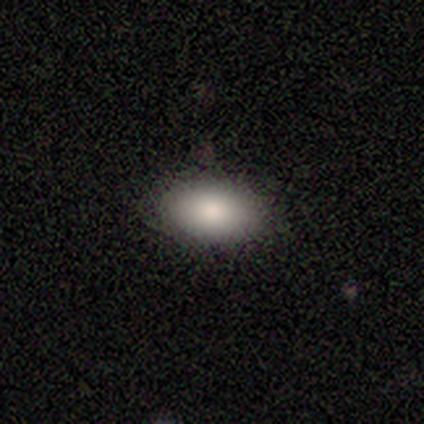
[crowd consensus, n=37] Overall: smooth (92%). How rounded: in between (97%). Merging: none (94%).